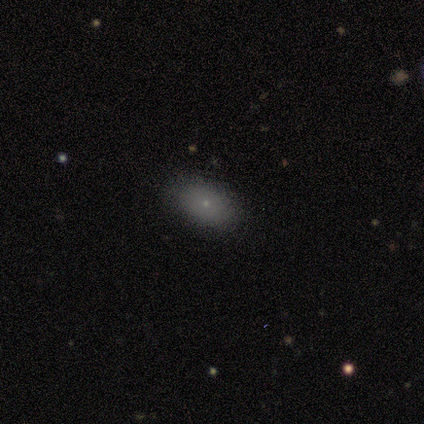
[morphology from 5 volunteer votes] This appears to be a smooth galaxy with no disk features (100%) that is in between round and cigar-shaped (80%). Merging: none (60%).